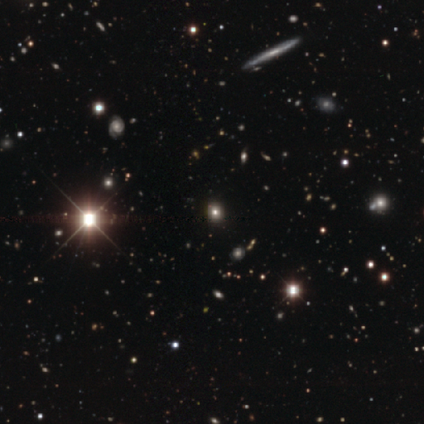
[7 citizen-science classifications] smooth_or_featured: star or artifact (p=0.57) [alt: smooth p=0.29]